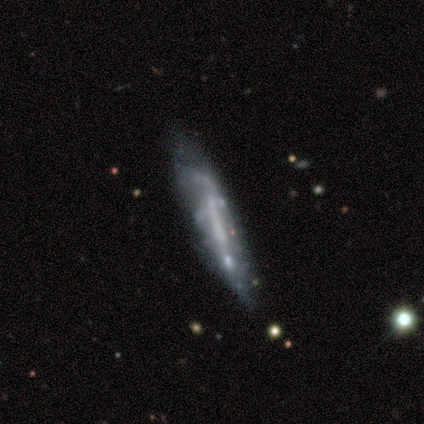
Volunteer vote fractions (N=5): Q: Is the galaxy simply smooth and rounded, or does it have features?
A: smooth — 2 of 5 (40%, tied with star or artifact).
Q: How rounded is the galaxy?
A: cigar-shaped — 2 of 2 (100%).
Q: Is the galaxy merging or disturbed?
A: none — 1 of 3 (33%, tied with minor disturbance and major disturbance).